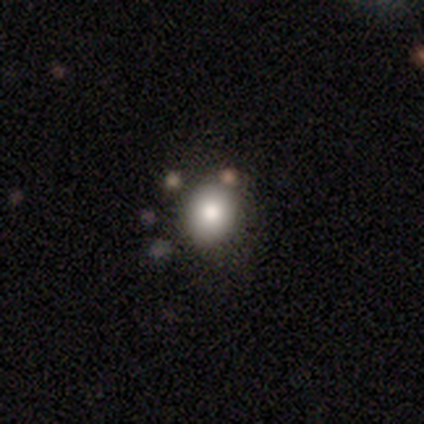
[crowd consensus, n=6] smooth-or-featured: smooth: 67% | featured or disk: 33% | star or artifact: 0%
  how-rounded: round: 100% | in between: 0% | cigar-shaped: 0%
  merging: none: 83% | minor disturbance: 17% | major disturbance: 0% | merger: 0%